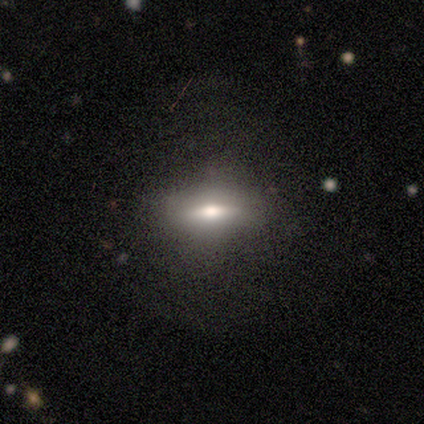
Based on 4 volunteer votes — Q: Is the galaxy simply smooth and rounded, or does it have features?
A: smooth — 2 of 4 (50%, tied with featured or disk).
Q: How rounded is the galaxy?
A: in between — 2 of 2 (100%).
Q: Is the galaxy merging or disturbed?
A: none — 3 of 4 (75%).